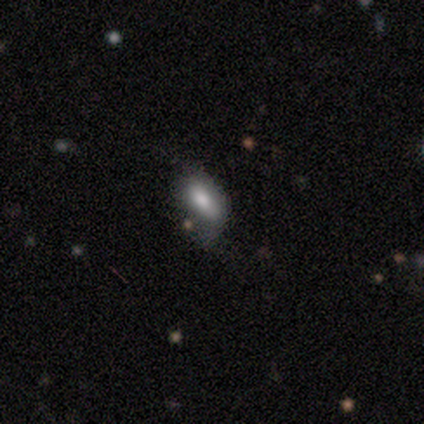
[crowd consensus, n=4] smooth 100%, featured or disk 0%, star or artifact 0%. Down the decision tree: how rounded — in between (100%); merging — major disturbance (50%).